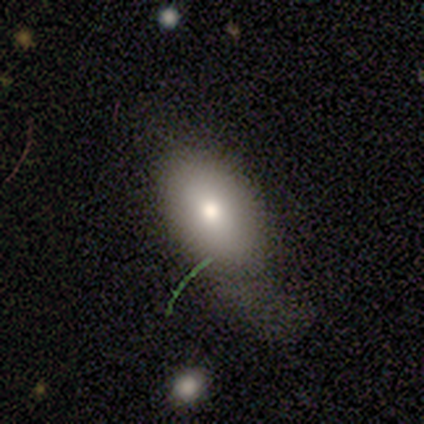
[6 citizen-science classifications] This appears to be a smooth galaxy with no disk features (67%) that is in between round and cigar-shaped (100%). Merging: major disturbance (75%).